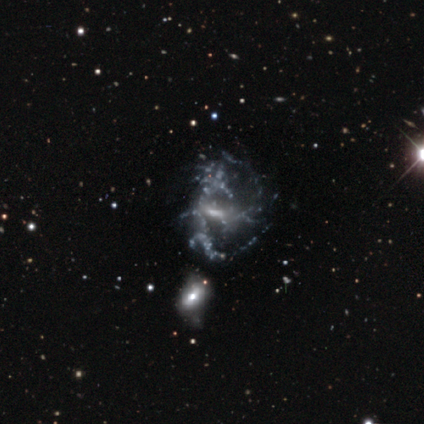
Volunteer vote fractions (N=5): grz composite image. It shows a featured or disk galaxy (80%) with no bar (75%), no spiral arms (75%) and a small central bulge (75%). Merging: none (40%, tied with major disturbance).